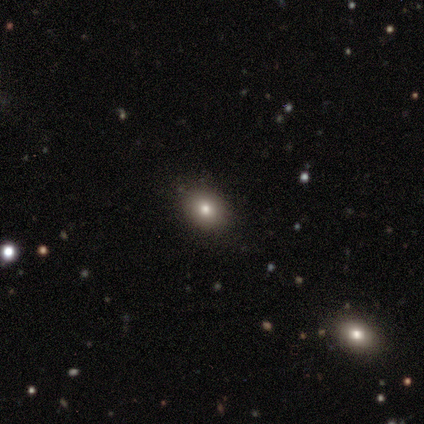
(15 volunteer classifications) Q: Smooth or featured?
A: smooth (80%); runner-up: star or artifact (20%)
Q: How rounded?
A: in between (67%); runner-up: round (25%)
Q: Merging?
A: none (67%); runner-up: minor disturbance (33%)